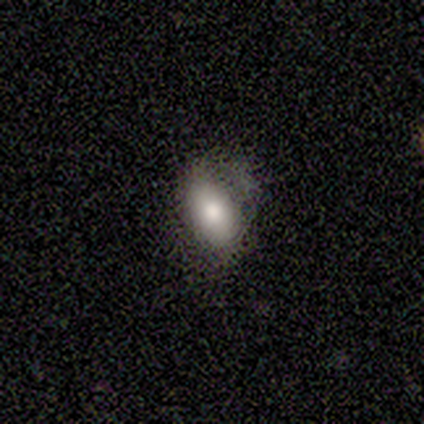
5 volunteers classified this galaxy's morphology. A smooth galaxy with no disk features (80%) that is in between round and cigar-shaped (75%). Merging: none (100%).